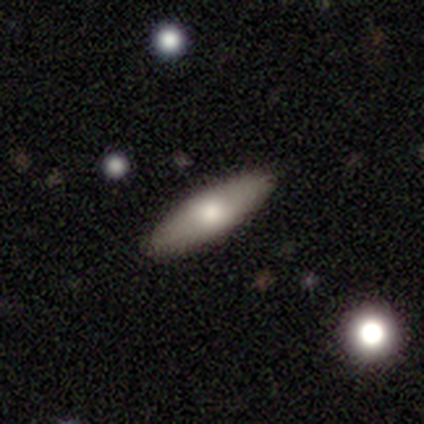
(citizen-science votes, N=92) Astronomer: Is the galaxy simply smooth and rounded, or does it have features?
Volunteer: smooth — 62%.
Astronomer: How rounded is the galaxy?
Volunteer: cigar-shaped — 51% (runner-up: in between, 49%).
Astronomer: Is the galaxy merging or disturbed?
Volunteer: none — 89%.